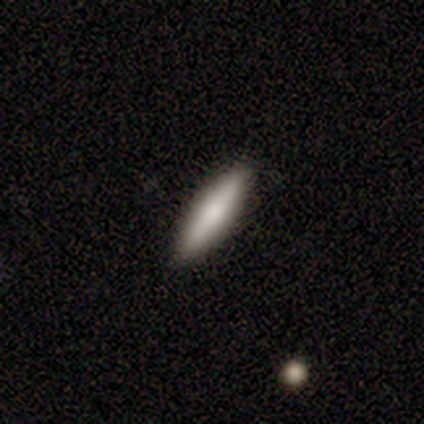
This is clearly a featured or disk galaxy (80%). It is likely viewed edge-on (75%). Edge-on bulge: likely rounded (67%). Merging: clearly none (100%).